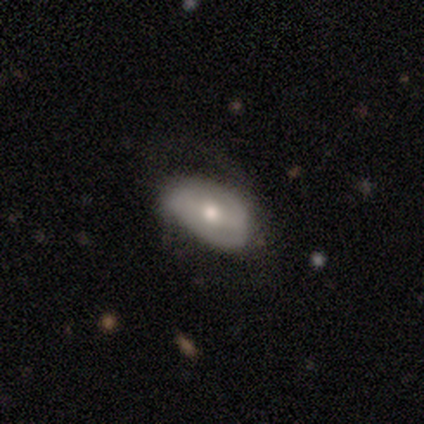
Overall: smooth (60%; featured or disk 40%). How rounded: in between (100%). Merging: none (60%; minor disturbance 20%).